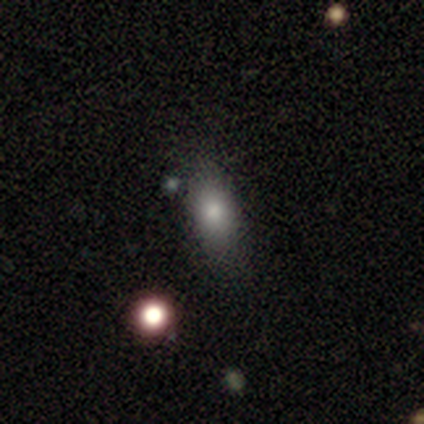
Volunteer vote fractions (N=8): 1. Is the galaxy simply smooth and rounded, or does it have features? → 62% smooth, 25% star or artifact, 12% featured or disk.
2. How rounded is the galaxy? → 80% in between, 20% round, 0% cigar-shaped.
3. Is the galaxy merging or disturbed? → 50% none (tied), 50% minor disturbance (tied), 0% major disturbance, 0% merger.